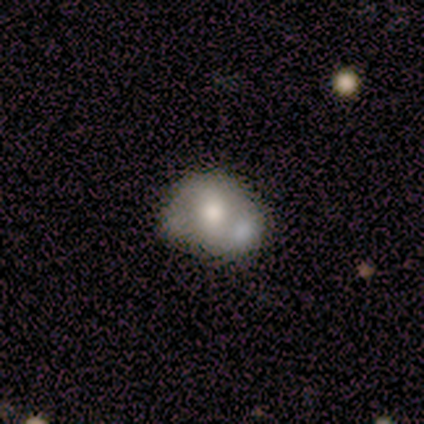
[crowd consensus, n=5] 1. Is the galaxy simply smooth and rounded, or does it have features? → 80% smooth, 20% featured or disk, 0% star or artifact.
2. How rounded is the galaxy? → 75% round, 25% in between, 0% cigar-shaped.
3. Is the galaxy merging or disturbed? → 60% none, 20% major disturbance, 20% merger, 0% minor disturbance.